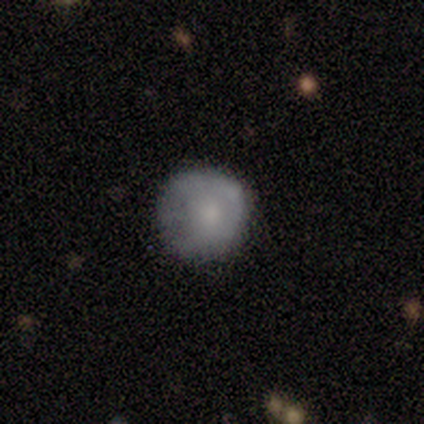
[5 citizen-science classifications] smooth_or_featured: featured or disk (p=0.60) [alt: smooth p=0.40]
disk_edge_on: no (p=1.00)
bar: no (p=1.00)
has_spiral_arms: no (p=0.67) [alt: yes p=0.33]
bulge_size: small (p=0.67) [alt: moderate p=0.33]
merging: none (p=0.40) [alt: minor disturbance p=0.20]